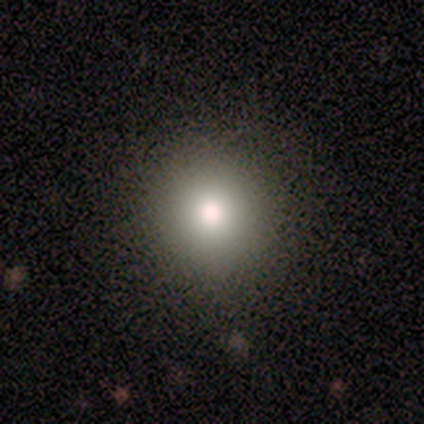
Smooth or featured?
  - smooth: 40% * (tied)
  - star or artifact: 40% * (tied)
  - featured or disk: 20%
How rounded?
  - round: 100% *
  - in between: 0%
  - cigar-shaped: 0%
Merging?
  - none: 100% *
  - minor disturbance: 0%
  - major disturbance: 0%
  - merger: 0%